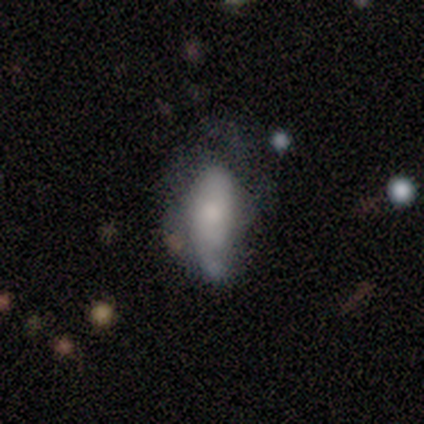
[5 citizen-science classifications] Smooth or featured: featured or disk — 60% (smooth — 20%)
Edge-on disk: no — 100%
Bar: no — 67% (weak — 33%)
Spiral arms: no — 67% (yes — 33%)
Bulge size: moderate — 33% (tied with small — 33%; none — 33%)
Merging: none — 50% (tied with merger — 50%)